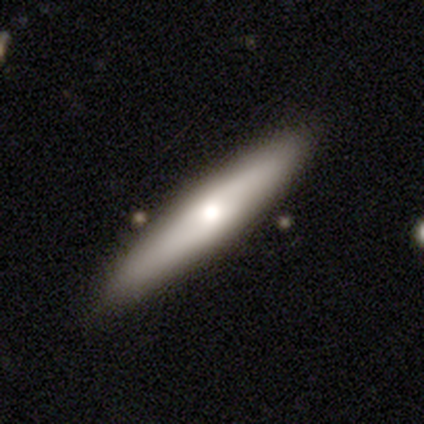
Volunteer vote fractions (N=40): This appears to be a smooth galaxy with no disk features (57%) that is cigar-shaped (87%). Merging: none (89%).